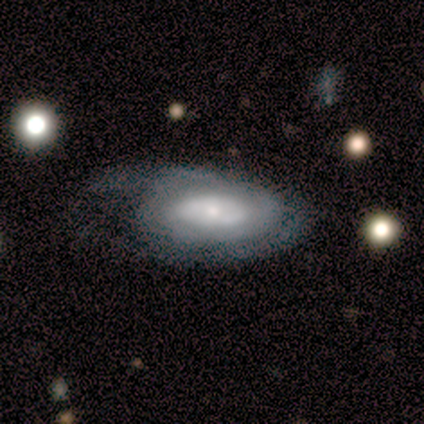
Morphology: type=featured or disk (60%); edge-on=no (100%); bar=no (100%); spiral arms=no (100%); bulge=small (100%); merging=minor disturbance (60%).